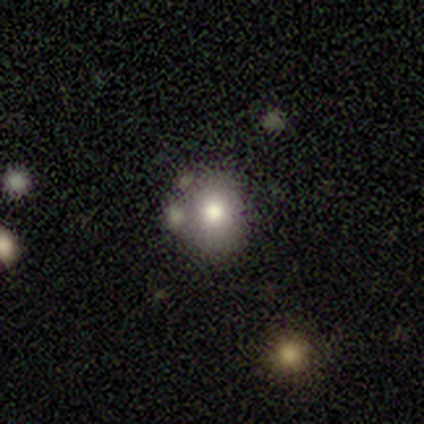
Q: Smooth or featured?
A: smooth (60%); runner-up: star or artifact (40%)
Q: How rounded?
A: round (100%)
Q: Merging?
A: none (100%)